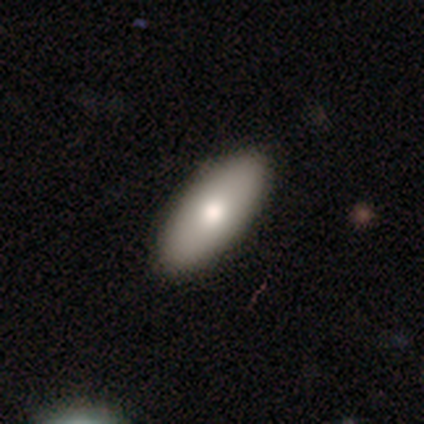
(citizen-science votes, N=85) This is likely a smooth galaxy (78%). How rounded: clearly in between (85%). Merging: clearly none (91%).